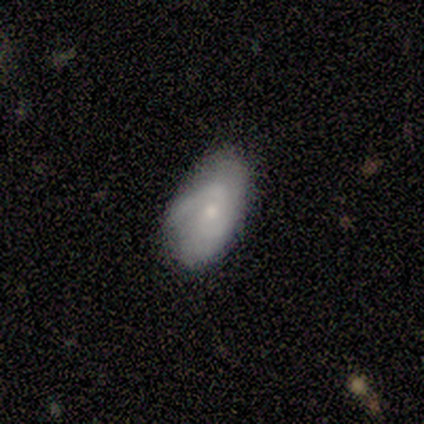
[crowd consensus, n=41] smooth 54%, featured or disk 46%, star or artifact 0%. Down the decision tree: how rounded — in between (91%); merging — none (59%).